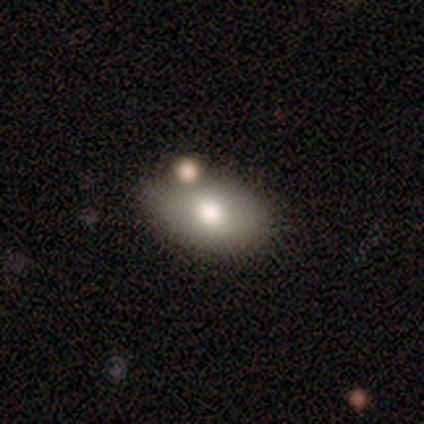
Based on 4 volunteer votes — A smooth galaxy with no disk features (75%) that is in between round and cigar-shaped (67%).

Vote fractions:
- Smooth or featured? smooth: 75% / featured or disk: 25% / star or artifact: 0%
- How rounded? in between: 67% / round: 33% / cigar-shaped: 0%
- Merging? minor disturbance: 75% / none: 25% / major disturbance: 0% / merger: 0%